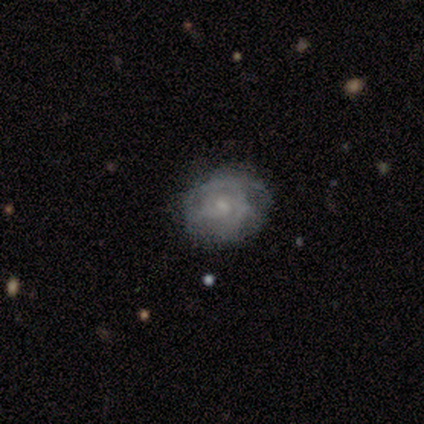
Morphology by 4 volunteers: A featured or disk galaxy (75%) with no bar (100%), 2 (50%, tied with can't tell) tight (100%) spiral arms (67%) and a moderate central bulge (33%, tied with small and none). Merging: none (75%).